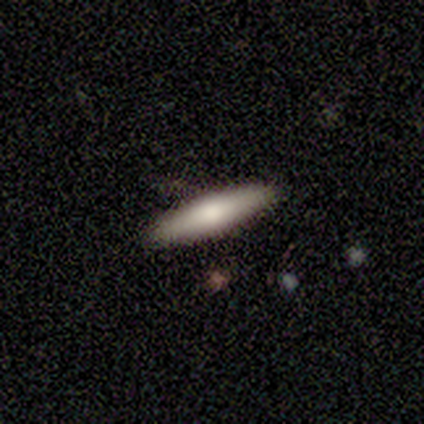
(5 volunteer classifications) Smooth or featured?
  - smooth: 80% *
  - featured or disk: 20%
  - star or artifact: 0%
How rounded?
  - cigar-shaped: 75% *
  - in between: 25%
  - round: 0%
Merging?
  - none: 100% *
  - minor disturbance: 0%
  - major disturbance: 0%
  - merger: 0%